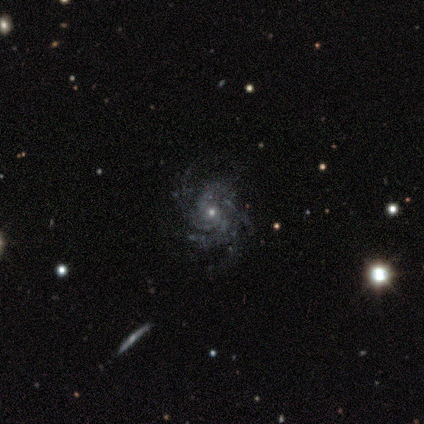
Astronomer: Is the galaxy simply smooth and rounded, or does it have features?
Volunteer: featured or disk — 100%.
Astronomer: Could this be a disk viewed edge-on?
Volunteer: no — 100%.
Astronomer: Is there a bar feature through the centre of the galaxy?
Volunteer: no — 100%.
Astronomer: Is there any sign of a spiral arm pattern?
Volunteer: yes — 100%.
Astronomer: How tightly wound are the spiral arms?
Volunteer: medium — 50%.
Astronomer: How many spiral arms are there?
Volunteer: more than 4 — 50%.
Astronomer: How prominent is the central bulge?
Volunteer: small — 75%.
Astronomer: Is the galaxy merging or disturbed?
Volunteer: none — 50%.